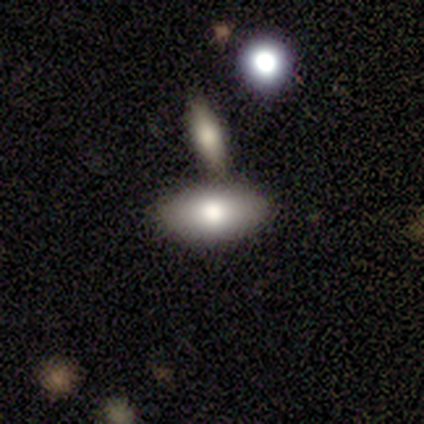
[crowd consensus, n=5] Smooth or featured? smooth (80%)
How rounded? in between (100%)
Merging? none (80%)